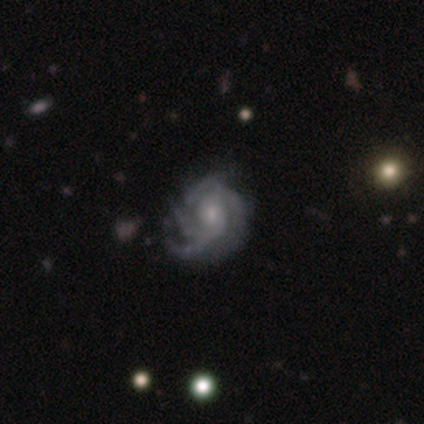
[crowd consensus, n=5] Volunteers were most divided on "spiral arm count" (4-way tie): 2: 25%, 3: 25%, 4: 25%, can't tell: 25%, 1: 0%, more than 4: 0%; "bulge size" (2-way tie): moderate: 50%, small: 50%, dominant: 0%, large: 0%, none: 0%. More confident: edge-on disk — no (100%); spiral arms — yes (100%); smooth or featured — featured or disk (80%); bar — no (75%); spiral winding — tight (75%); merging — major disturbance (60%).